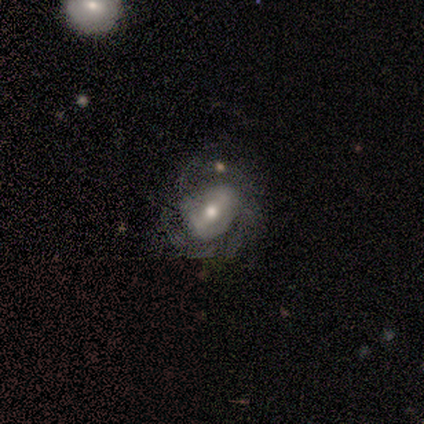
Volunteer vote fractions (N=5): A featured or disk galaxy (80%) with no bar (50%), no spiral arms (100%) and a moderate central bulge (50%).

Vote fractions:
- Smooth or featured? featured or disk: 80% / smooth: 20% / star or artifact: 0%
- Edge-on disk? no: 100% / yes: 0%
- Bar? no: 50% / strong: 25% / weak: 25%
- Spiral arms? no: 100% / yes: 0%
- Bulge size? moderate: 50% / large: 25% / small: 25% / dominant: 0% / none: 0%
- Merging? minor disturbance: 60% / none: 20% / major disturbance: 20% / merger: 0%